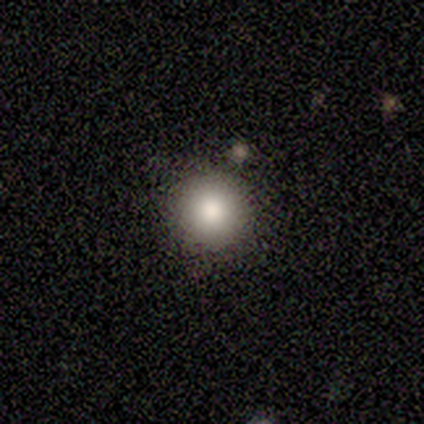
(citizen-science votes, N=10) A smooth galaxy with no disk features (80%) that is round (100%). Merging: none (89%).